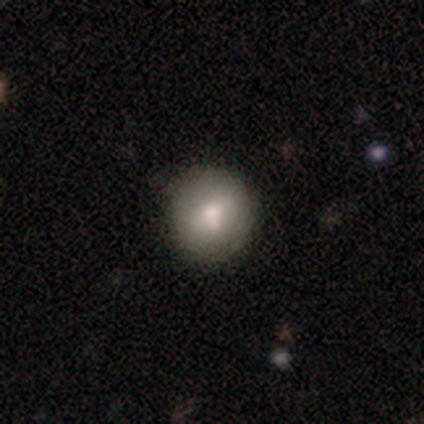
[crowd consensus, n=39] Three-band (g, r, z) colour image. It shows a smooth galaxy with no disk features (72%) that is round (82%). Merging: none (47%).